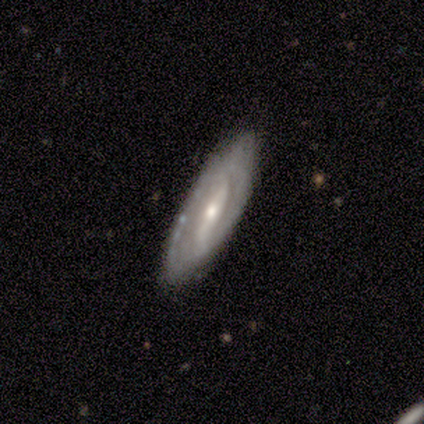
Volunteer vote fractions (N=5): Smooth or featured?
  - featured or disk: 80% *
  - star or artifact: 20%
  - smooth: 0%
Edge-on disk?
  - no: 75% *
  - yes: 25%
Bar?
  - strong: 100% *
  - weak: 0%
  - no: 0%
Spiral arms?
  - yes: 67% *
  - no: 33%
Spiral winding?
  - tight: 100% *
  - medium: 0%
  - loose: 0%
Spiral arm count?
  - 2: 50% * (tied)
  - can't tell: 50% * (tied)
  - 1: 0%
  - 3: 0%
  - 4: 0%
  - more than 4: 0%
Bulge size?
  - moderate: 67% *
  - small: 33%
  - dominant: 0%
  - large: 0%
  - none: 0%
Merging?
  - none: 100% *
  - minor disturbance: 0%
  - major disturbance: 0%
  - merger: 0%